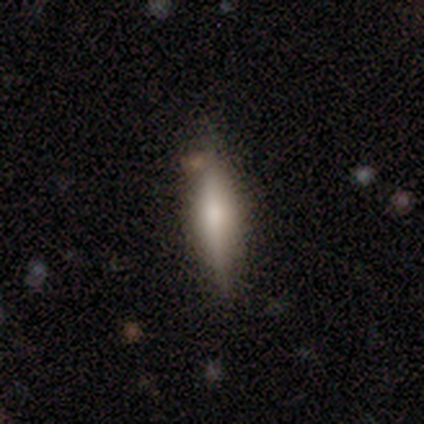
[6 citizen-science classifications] This appears to be a featured or disk galaxy (67%) viewed edge-on (100%) with a rounded central bulge (100%). Merging: none (67%).